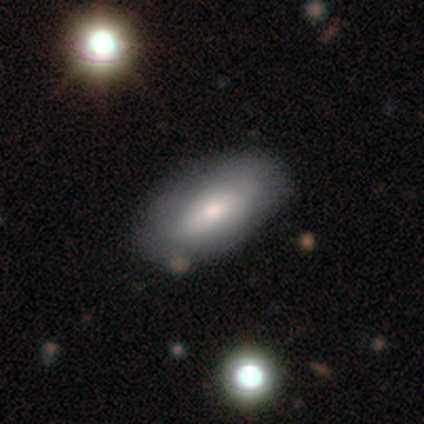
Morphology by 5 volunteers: smooth 60%, featured or disk 40%, star or artifact 0%. Down the decision tree: how rounded — in between (100%); merging — none (80%).